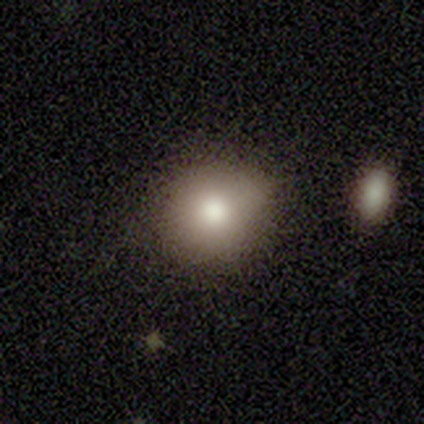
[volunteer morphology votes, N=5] Overall: smooth (100%). How rounded: round (80%). Merging: none (80%).